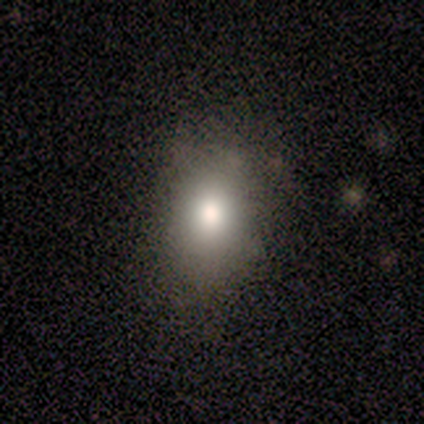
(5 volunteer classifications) Smooth or featured? smooth (100%)
How rounded? round (60%)
Merging? none (80%)